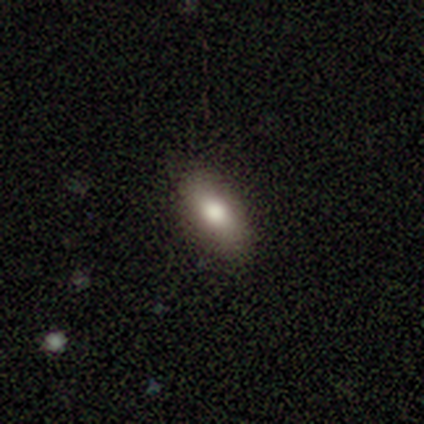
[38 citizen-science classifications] smooth 79%, featured or disk 11%, star or artifact 11%. Down the decision tree: how rounded — in between (97%); merging — none (91%).